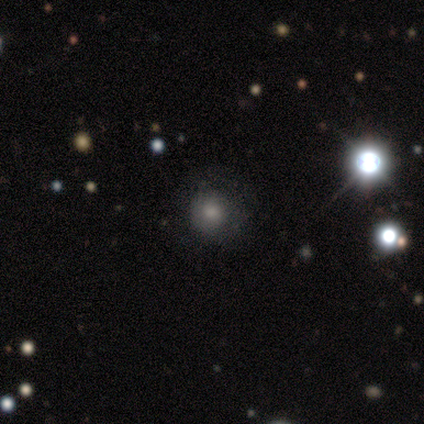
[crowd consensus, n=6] Volunteers were most divided on "merging": none: 67%, minor disturbance: 33%, major disturbance: 0%, merger: 0%. More confident: smooth or featured — smooth (83%); how rounded — round (80%).